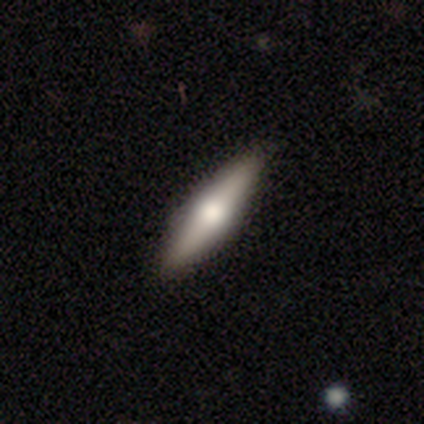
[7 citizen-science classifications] This is possibly a featured or disk galaxy (57%). It is clearly viewed edge-on (100%). Edge-on bulge: clearly rounded (100%). Merging: clearly none (100%).